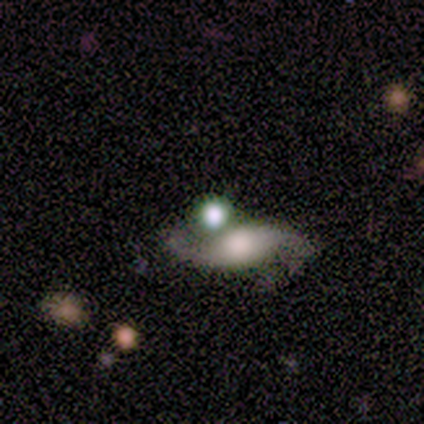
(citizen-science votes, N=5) Smooth or featured? featured or disk (60%)
Edge-on disk? no (100%)
Bar? no (67%)
Spiral arms? yes (100%)
Spiral winding? loose (100%)
Spiral arm count? 2 (67%)
Bulge size? large (33%, tied with small and none)
Merging? none (33%, tied with minor disturbance and merger)